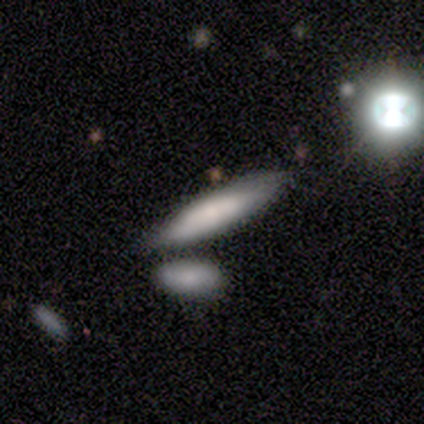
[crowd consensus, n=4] smooth_or_featured: smooth (p=1.00)
how_rounded: in between (p=0.75) [alt: cigar-shaped p=0.25]
merging: none (p=0.75) [alt: merger p=0.25]